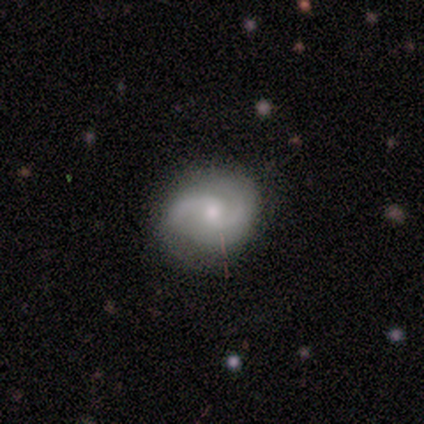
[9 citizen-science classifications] Overall: featured or disk (78%). Edge-on disk: no (100%). Bar: no (100%). Spiral arms: yes (100%). Spiral arm count: 2 (100%). Spiral winding: medium (43%, tied with loose). Bulge size: moderate (71%). Merging: none (100%).